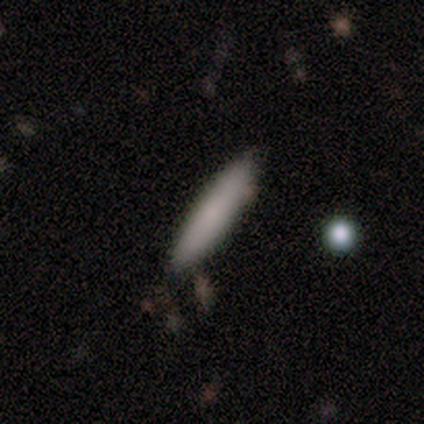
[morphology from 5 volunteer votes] smooth_or_featured: smooth (p=0.80) [alt: featured or disk p=0.20]
how_rounded: cigar-shaped (p=1.00)
merging: none (p=0.80) [alt: minor disturbance p=0.20]